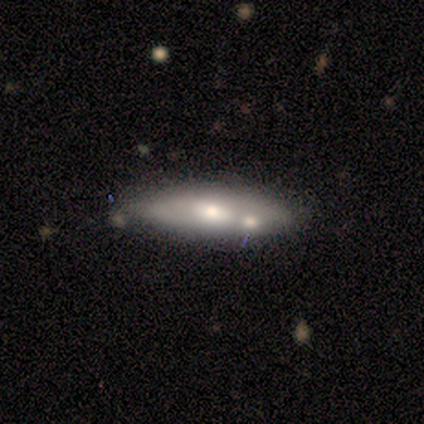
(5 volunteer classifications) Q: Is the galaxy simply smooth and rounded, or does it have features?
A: featured or disk — 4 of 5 (80%).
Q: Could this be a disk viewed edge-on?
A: no — 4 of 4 (100%).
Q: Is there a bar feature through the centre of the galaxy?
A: strong — 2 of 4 (50%, tied with weak).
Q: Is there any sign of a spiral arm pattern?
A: yes — 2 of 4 (50%, tied with no).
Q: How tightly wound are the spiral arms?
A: medium — 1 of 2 (50%, tied with loose).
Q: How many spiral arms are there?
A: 2 — 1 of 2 (50%, tied with can't tell).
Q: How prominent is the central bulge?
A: moderate — 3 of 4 (75%).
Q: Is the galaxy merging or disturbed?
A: none — 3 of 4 (75%).